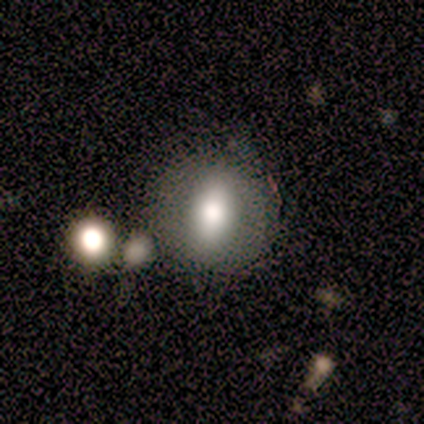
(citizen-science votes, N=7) Smooth or featured? 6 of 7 (86%) said smooth. How rounded? 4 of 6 (67%) said in between. Merging? 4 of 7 (57%) said none.